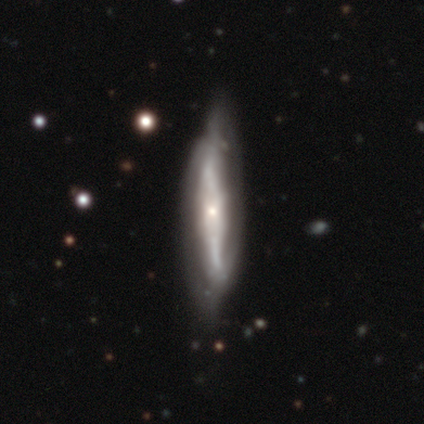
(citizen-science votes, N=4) This is clearly a featured or disk galaxy (100%). It is clearly viewed edge-on (100%). Edge-on bulge: possibly none (50%). Merging: likely minor disturbance (75%).